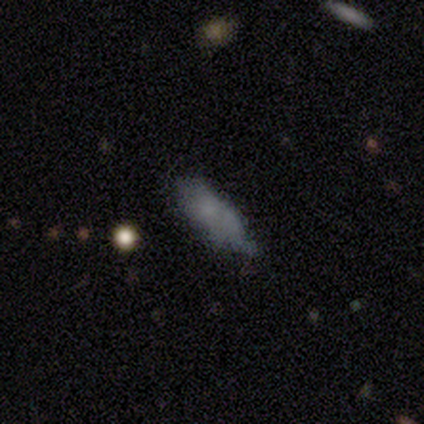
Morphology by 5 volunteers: A smooth galaxy with no disk features (80%) that is in between round and cigar-shaped (100%). Merging: none (40%, tied with minor disturbance).